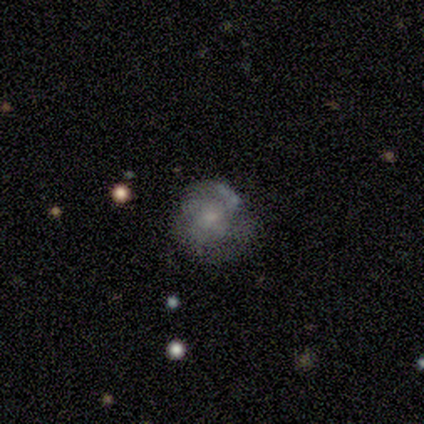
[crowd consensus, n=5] This is clearly a featured or disk galaxy (100%). It is clearly not viewed edge-on (100%). Bar: likely no (60%). Spiral arm pattern: likely yes (60%). Spiral arm count: likely 4 (67%). Spiral winding: likely medium (67%). Central bulge: likely small (60%). Merging: likely none (60%).